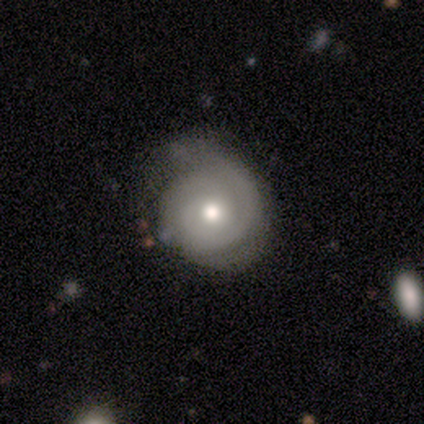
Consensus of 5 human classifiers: Smooth or featured? featured or disk (60%)
Edge-on disk? no (100%)
Bar? no (100%)
Spiral arms? yes (100%)
Spiral winding? tight (100%)
Spiral arm count? 2 (67%)
Bulge size? moderate (100%)
Merging? none (80%)